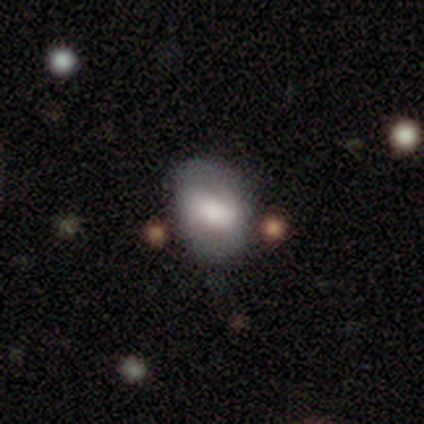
A smooth galaxy with no disk features (70%) that is in between round and cigar-shaped (71%).

Vote fractions:
- Smooth or featured? smooth: 70% / featured or disk: 30% / star or artifact: 0%
- How rounded? in between: 71% / round: 29% / cigar-shaped: 0%
- Merging? none: 80% / minor disturbance: 20% / major disturbance: 0% / merger: 0%